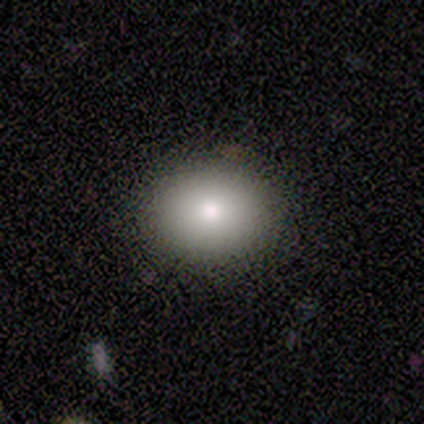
Overall: smooth (80%). How rounded: round (50%, tied with in between). Merging: none (100%).